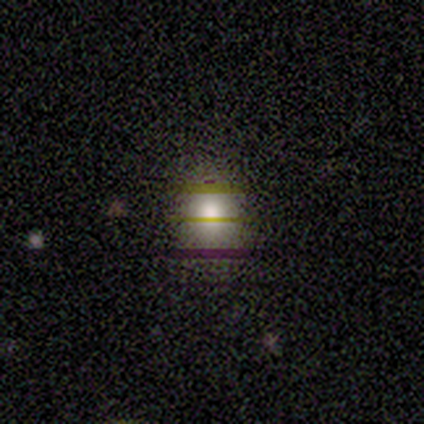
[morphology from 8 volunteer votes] smooth_or_featured: smooth (p=0.62) [alt: star or artifact p=0.25]
how_rounded: in between (p=1.00)
merging: none (p=0.67) [alt: minor disturbance p=0.17]